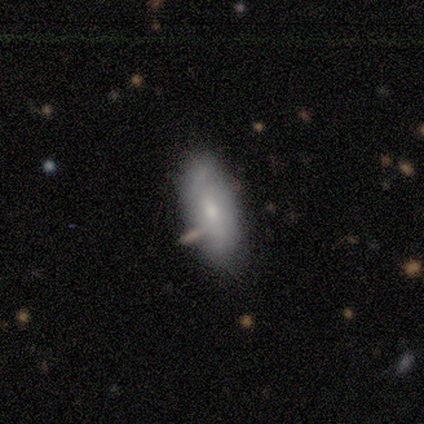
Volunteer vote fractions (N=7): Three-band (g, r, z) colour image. It shows a smooth galaxy with no disk features (86%) that is in between round and cigar-shaped (100%). Merging: none (71%).